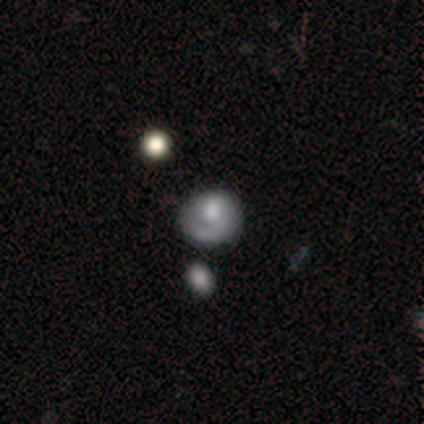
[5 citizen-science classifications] Volunteers were most divided on "bulge size" (3-way tie): dominant: 33%, large: 33%, small: 33%, moderate: 0%, none: 0%. Remaining: edge-on disk — no (100%); bar — no (100%); spiral arms — no (100%); smooth or featured — featured or disk (60%); merging — none (40%).